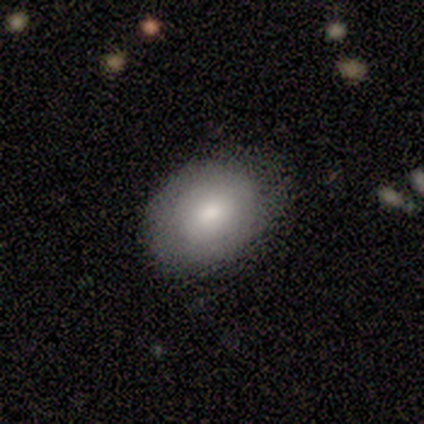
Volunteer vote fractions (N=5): This is clearly a smooth galaxy (80%). How rounded: clearly in between (100%). Merging: clearly none (100%).